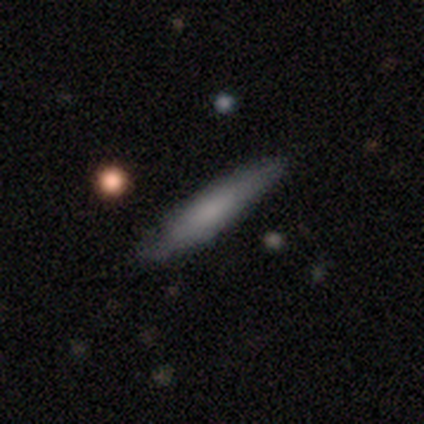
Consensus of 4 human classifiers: Overall: smooth (50%, tied with featured or disk). How rounded: cigar-shaped (100%). Merging: none (75%).